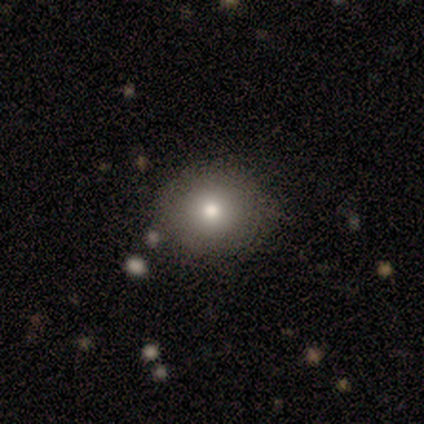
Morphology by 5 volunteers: A smooth galaxy with no disk features (80%) that is round (50%, tied with in between). Merging: none (80%).